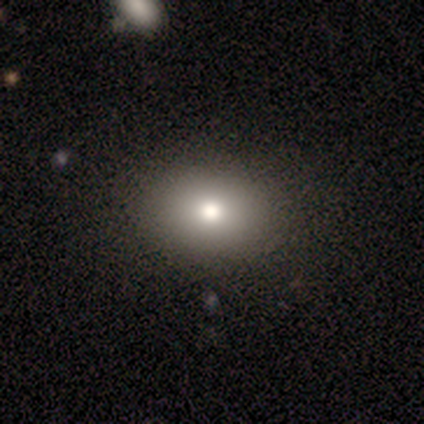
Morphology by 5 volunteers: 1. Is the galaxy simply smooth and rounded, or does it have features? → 100% smooth, 0% featured or disk, 0% star or artifact.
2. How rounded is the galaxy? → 60% round, 40% in between, 0% cigar-shaped.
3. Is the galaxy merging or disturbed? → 80% none, 20% minor disturbance, 0% major disturbance, 0% merger.